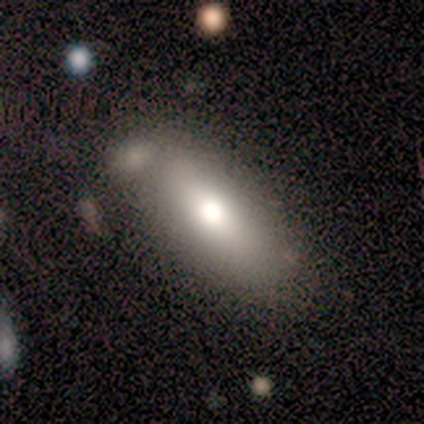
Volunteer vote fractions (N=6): A smooth galaxy with no disk features (83%) that is in between round and cigar-shaped (80%).

Vote fractions:
- Smooth or featured? smooth: 83% / star or artifact: 17% / featured or disk: 0%
- How rounded? in between: 80% / cigar-shaped: 20% / round: 0%
- Merging? none: 100% / minor disturbance: 0% / major disturbance: 0% / merger: 0%